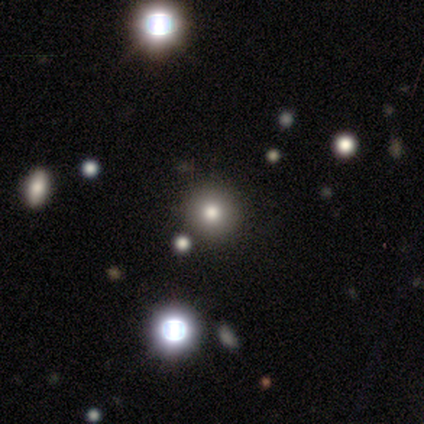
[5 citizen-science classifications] smooth 80%, star or artifact 20%, featured or disk 0%. Down the decision tree: how rounded — round (75%); merging — none (100%).